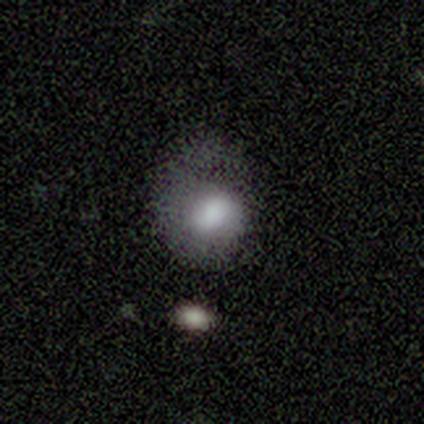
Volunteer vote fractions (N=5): smooth 80%, featured or disk 20%, star or artifact 0%. Down the decision tree: how rounded — in between (75%); merging — minor disturbance (60%).